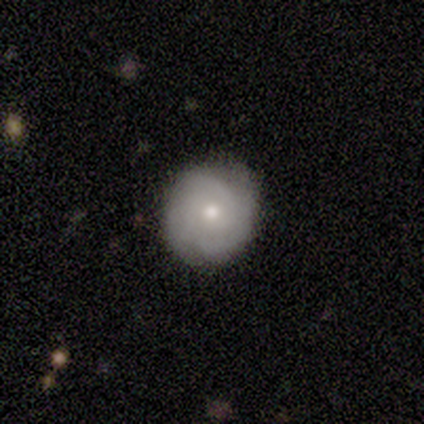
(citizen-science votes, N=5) smooth_or_featured: smooth (p=0.80) [alt: featured or disk p=0.20]
how_rounded: round (p=0.75) [alt: in between p=0.25]
merging: none (p=1.00)